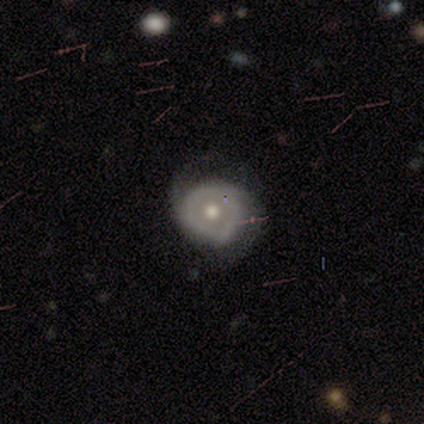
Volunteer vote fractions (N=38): Overall: featured or disk (66%; smooth 29%). Edge-on disk: no (92%). Bar: no (78%). Spiral arms: yes (61%; no 39%). Spiral arm count: 2 (86%). Spiral winding: tight (43%; medium 29%). Bulge size: moderate (70%). Merging: none (50%; minor disturbance 33%).